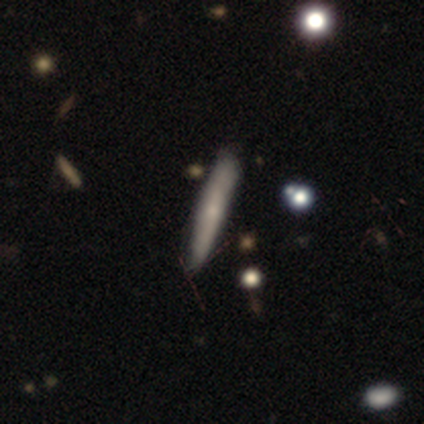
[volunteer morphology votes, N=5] Smooth or featured?
  - featured or disk: 60% *
  - smooth: 40%
  - star or artifact: 0%
Edge-on disk?
  - yes: 100% *
  - no: 0%
Edge-on bulge?
  - none: 100% *
  - boxy: 0%
  - rounded: 0%
Merging?
  - minor disturbance: 60% *
  - none: 20%
  - merger: 20%
  - major disturbance: 0%